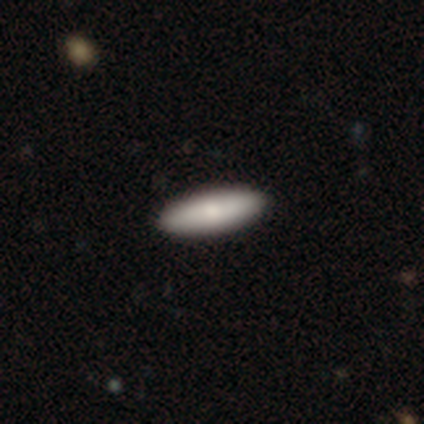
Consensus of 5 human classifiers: A smooth galaxy with no disk features (100%) that is in between round and cigar-shaped (60%).

Vote fractions:
- Smooth or featured? smooth: 100% / featured or disk: 0% / star or artifact: 0%
- How rounded? in between: 60% / cigar-shaped: 40% / round: 0%
- Merging? none: 100% / minor disturbance: 0% / major disturbance: 0% / merger: 0%